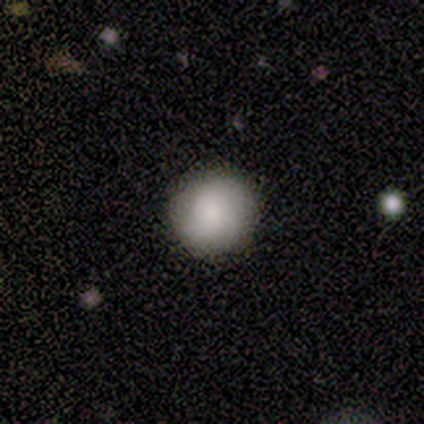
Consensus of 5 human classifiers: Smooth or featured? smooth (100%)
How rounded? round (100%)
Merging? none (100%)